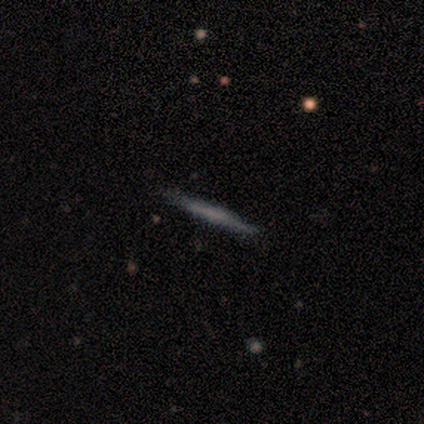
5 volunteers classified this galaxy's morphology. smooth 60%, featured or disk 40%, star or artifact 0%. Down the decision tree: how rounded — cigar-shaped (100%); merging — none (80%).